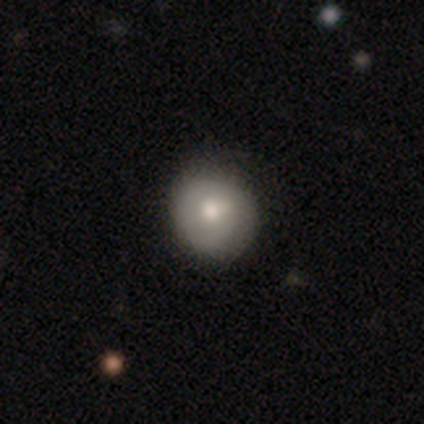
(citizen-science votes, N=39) A smooth galaxy with no disk features (62%) that is round (88%).

Vote fractions:
- Smooth or featured? smooth: 62% / featured or disk: 33% / star or artifact: 5%
- How rounded? round: 88% / in between: 12% / cigar-shaped: 0%
- Merging? none: 62% / minor disturbance: 19% / merger: 3% / major disturbance: 0%